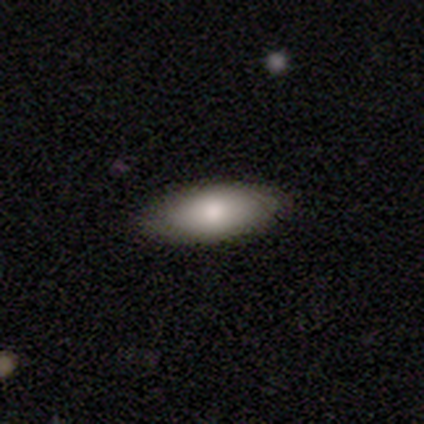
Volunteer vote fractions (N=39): A smooth galaxy with no disk features (79%) that is in between round and cigar-shaped (94%).

Vote fractions:
- Smooth or featured? smooth: 79% / star or artifact: 13% / featured or disk: 8%
- How rounded? in between: 94% / cigar-shaped: 6% / round: 0%
- Merging? none: 97% / minor disturbance: 3% / major disturbance: 0% / merger: 0%